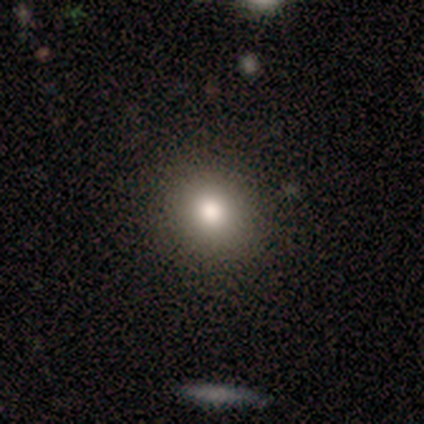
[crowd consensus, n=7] smooth-or-featured: smooth: 86% | star or artifact: 14% | featured or disk: 0%
  how-rounded: round: 67% | in between: 33% | cigar-shaped: 0%
  merging: none: 100% | minor disturbance: 0% | major disturbance: 0% | merger: 0%